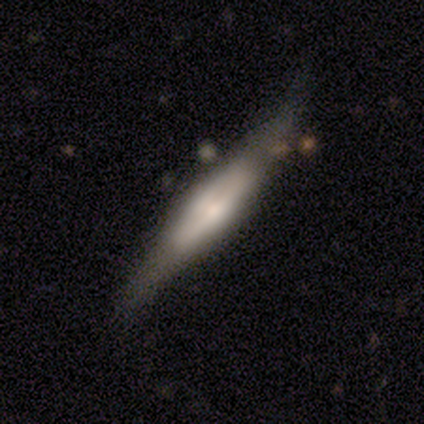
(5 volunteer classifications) Overall: featured or disk (100%). Edge-on disk: yes (100%). Edge-on bulge: boxy (60%; none 20%). Merging: none (80%).